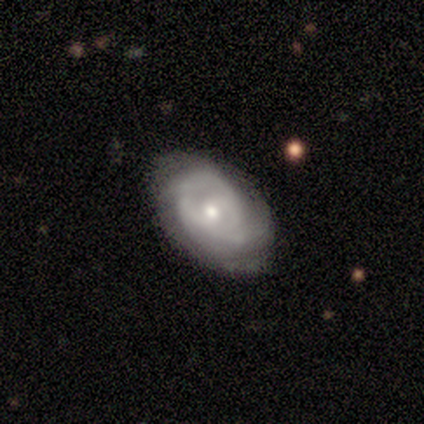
smooth_or_featured: featured or disk (p=0.86) [alt: smooth p=0.14]
disk_edge_on: no (p=1.00)
bar: no (p=0.67) [alt: weak p=0.33]
has_spiral_arms: yes (p=0.83) [alt: no p=0.17]
spiral_winding: tight (p=0.40) [tied with: medium p=0.40]
spiral_arm_count: can't tell (p=0.40) [alt: 2 p=0.20]
bulge_size: moderate (p=0.50) [tied with: small p=0.50]
merging: none (p=0.43) [tied with: minor disturbance p=0.43]